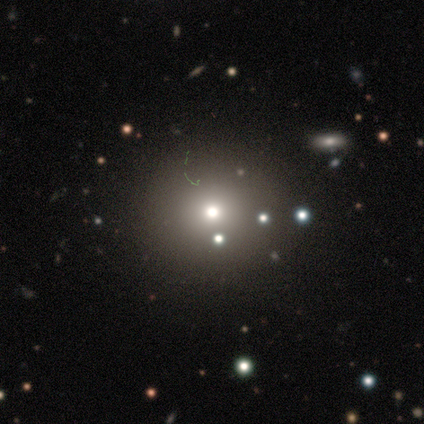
Morphology: type=smooth (60%); roundness=round (100%); merging=none (33%, tied with minor disturbance and major disturbance).